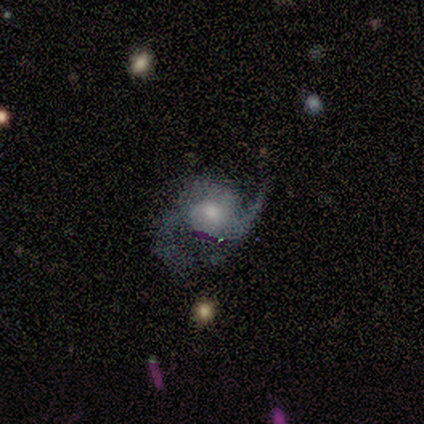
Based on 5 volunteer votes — A featured or disk galaxy (80%) with a weak bar (50%, tied with no), 2 (50%) loose (50%) spiral arms (100%) and a small central bulge (75%).

Vote fractions:
- Smooth or featured? featured or disk: 80% / smooth: 20% / star or artifact: 0%
- Edge-on disk? no: 100% / yes: 0%
- Bar? weak: 50% (tied) / no: 50% (tied) / strong: 0%
- Spiral arms? yes: 100% / no: 0%
- Spiral winding? loose: 50% / tight: 25% / medium: 25%
- Spiral arm count? 2: 50% / 1: 25% / can't tell: 25% / 3: 0% / 4: 0% / more than 4: 0%
- Bulge size? small: 75% / moderate: 25% / dominant: 0% / large: 0% / none: 0%
- Merging? none: 60% / minor disturbance: 20% / major disturbance: 20% / merger: 0%